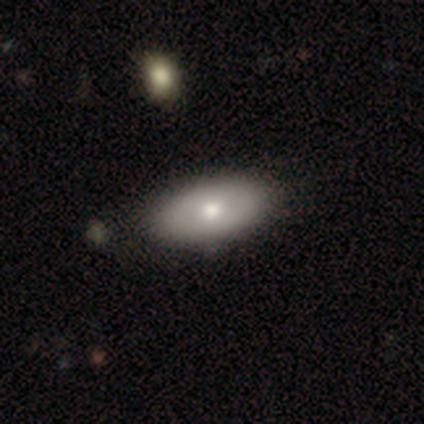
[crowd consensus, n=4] Overall: smooth (100%). How rounded: in between (100%). Merging: none (75%).